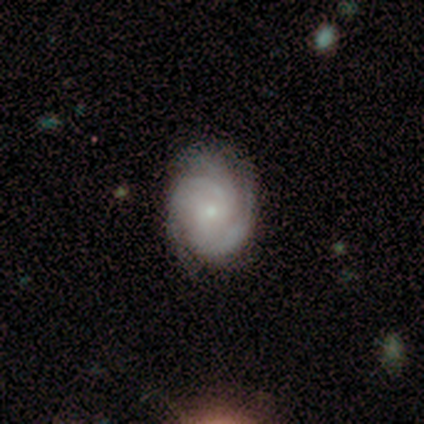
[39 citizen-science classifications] featured or disk 90%, smooth 8%, star or artifact 3%. Down the decision tree: edge-on disk — no (97%); bar — no (62%); spiral arms — yes (97%); spiral arm count — 3 (73%); spiral winding — tight (70%); bulge size — small (62%); merging — none (89%).